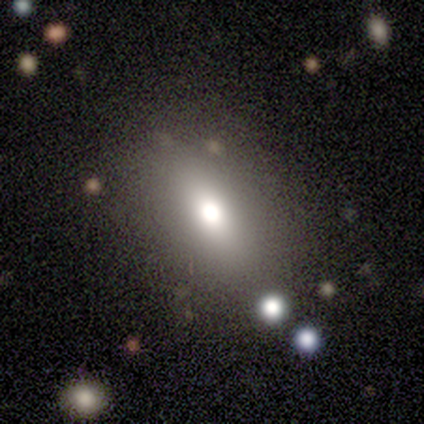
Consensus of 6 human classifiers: Smooth or featured: smooth — 67% (featured or disk — 17%)
How rounded: in between — 100%
Merging: none — 100%